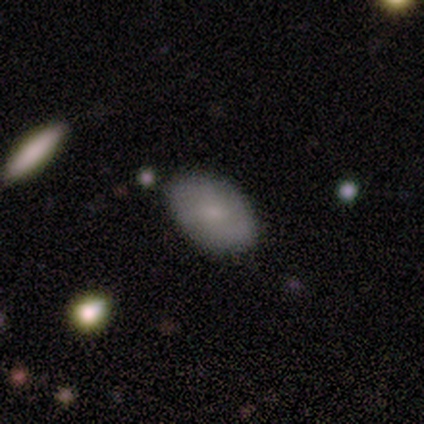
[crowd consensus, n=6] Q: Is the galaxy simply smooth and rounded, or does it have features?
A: smooth — 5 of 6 (83%).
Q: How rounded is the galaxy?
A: in between — 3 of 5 (60%).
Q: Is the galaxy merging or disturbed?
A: none — 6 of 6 (100%).